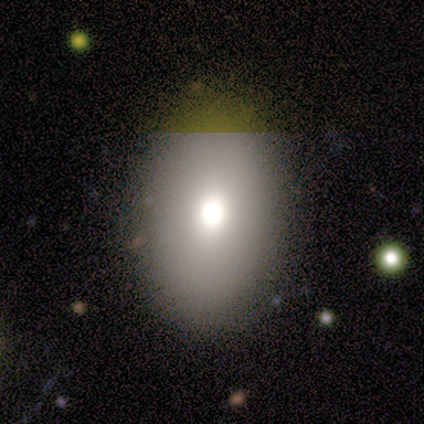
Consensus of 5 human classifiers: Smooth or featured? smooth (40%, tied with star or artifact)
How rounded? in between (100%)
Merging? none (67%)